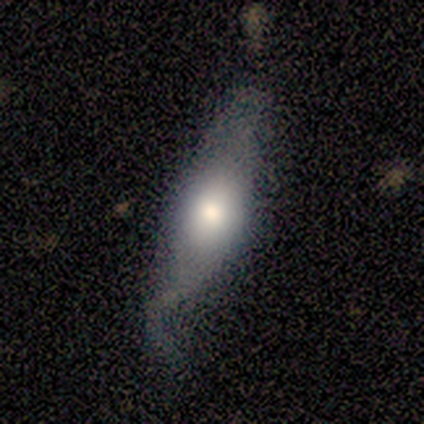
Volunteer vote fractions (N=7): Smooth or featured: smooth — 71% (featured or disk — 29%)
How rounded: cigar-shaped — 60% (in between — 40%)
Merging: minor disturbance — 57% (none — 14%)